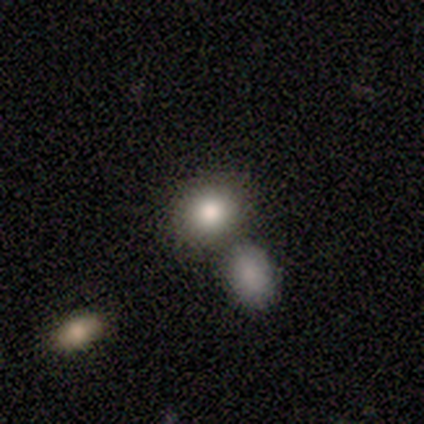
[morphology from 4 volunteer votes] A smooth galaxy with no disk features (50%, tied with featured or disk) that is round (100%).

Vote fractions:
- Smooth or featured? smooth: 50% (tied) / featured or disk: 50% (tied) / star or artifact: 0%
- How rounded? round: 100% / in between: 0% / cigar-shaped: 0%
- Merging? merger: 75% / none: 25% / minor disturbance: 0% / major disturbance: 0%